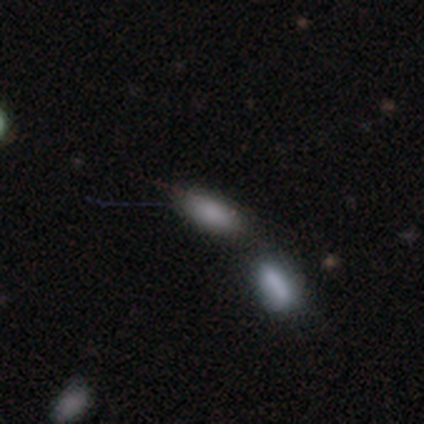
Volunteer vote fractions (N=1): This appears to be a smooth galaxy with no disk features (100%) that is in between round and cigar-shaped (100%). Merging: none (100%).